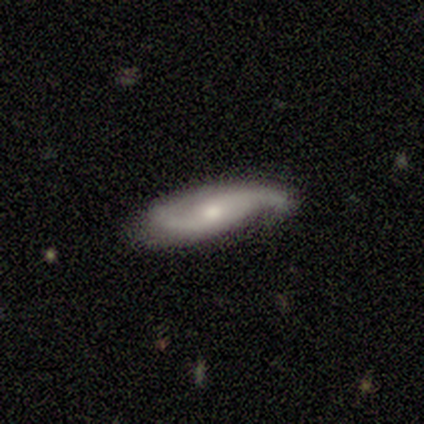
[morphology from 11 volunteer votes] This appears to be a featured or disk galaxy (82%) with no bar (62%), 2 (100%) medium (75%) spiral arms (100%) and a moderate central bulge (50%). Merging: none (64%).